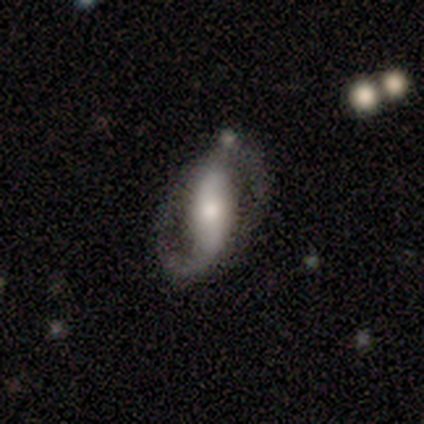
This is clearly a featured or disk galaxy (100%). It is clearly not viewed edge-on (100%). Bar: possibly no (50%). Spiral arm pattern: likely yes (67%). Spiral arm count: clearly 2 (100%). Spiral winding: possibly medium (50%). Central bulge: likely moderate (67%). Merging: likely none (67%).